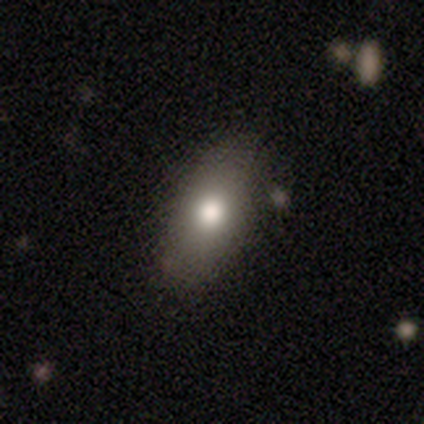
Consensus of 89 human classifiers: Smooth or featured?
  - smooth: 72% *
  - featured or disk: 18%
  - star or artifact: 10%
How rounded?
  - in between: 86% *
  - round: 9%
  - cigar-shaped: 5%
Merging?
  - none: 80% *
  - minor disturbance: 16%
  - major disturbance: 4%
  - merger: 0%